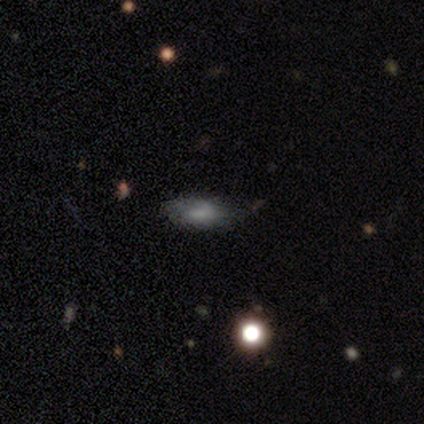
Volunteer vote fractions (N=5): Volunteers were most divided on "merging": none: 50%, minor disturbance: 25%, major disturbance: 25%, merger: 0%. More confident: how rounded — in between (100%); smooth or featured — smooth (60%).